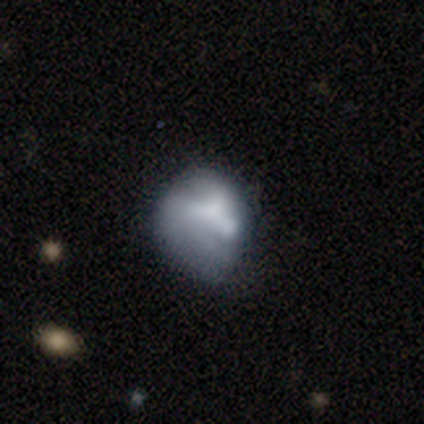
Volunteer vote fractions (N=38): Smooth or featured? 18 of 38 (47%) said featured or disk. Edge-on disk? 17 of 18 (94%) said no. Bar? 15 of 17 (88%) said no. Spiral arms? 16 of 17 (94%) said no. Bulge size? 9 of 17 (53%) said none. Merging? 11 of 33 (33%, tied with major disturbance) said none.